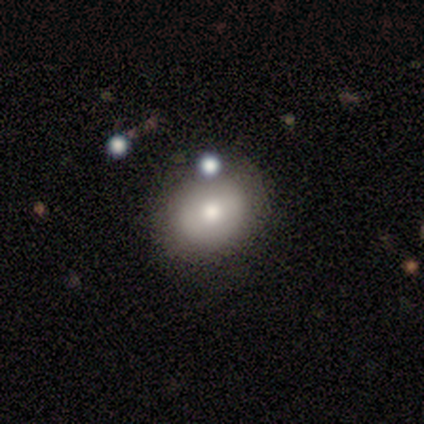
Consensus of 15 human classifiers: Morphology: type=smooth (67%); roundness=round (60%); merging=none (87%).